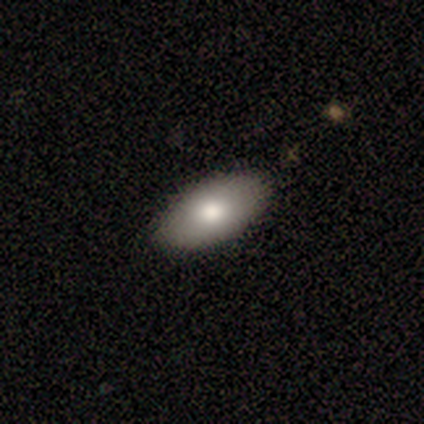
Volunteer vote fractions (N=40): Smooth or featured? 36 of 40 (90%) said smooth. How rounded? 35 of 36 (97%) said in between. Merging? 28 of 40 (70%) said none.